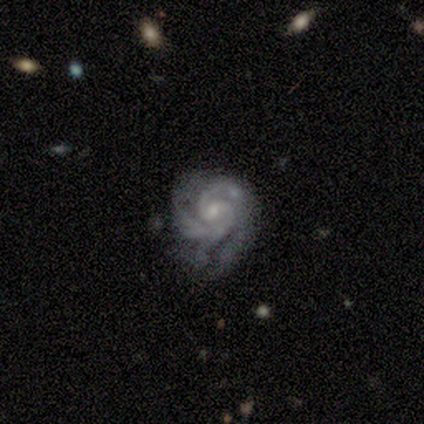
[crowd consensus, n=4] A featured or disk galaxy (100%) with no bar (50%), 2 (50%) tight (75%) spiral arms (100%) and a small central bulge (100%).

Vote fractions:
- Smooth or featured? featured or disk: 100% / smooth: 0% / star or artifact: 0%
- Edge-on disk? no: 100% / yes: 0%
- Bar? no: 50% / strong: 25% / weak: 25%
- Spiral arms? yes: 100% / no: 0%
- Spiral winding? tight: 75% / medium: 25% / loose: 0%
- Spiral arm count? 2: 50% / 3: 25% / 4: 25% / 1: 0% / more than 4: 0% / can't tell: 0%
- Bulge size? small: 100% / dominant: 0% / large: 0% / moderate: 0% / none: 0%
- Merging? none: 50% (tied) / minor disturbance: 50% (tied) / major disturbance: 0% / merger: 0%